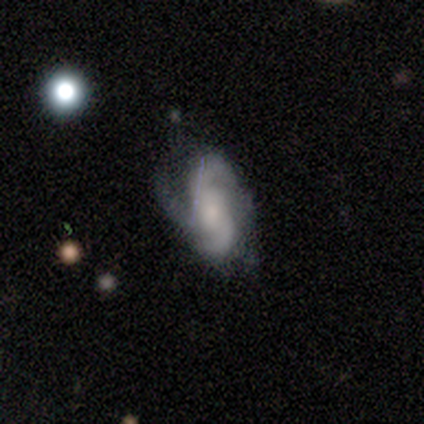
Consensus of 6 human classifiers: smooth_or_featured: featured or disk (p=1.00)
disk_edge_on: no (p=1.00)
bar: no (p=0.50) [alt: weak p=0.33]
has_spiral_arms: yes (p=1.00)
spiral_winding: medium (p=0.67) [alt: tight p=0.17]
spiral_arm_count: 2 (p=0.50) [alt: 3 p=0.33]
bulge_size: moderate (p=0.50) [alt: small p=0.33]
merging: minor disturbance (p=0.67) [alt: none p=0.17]